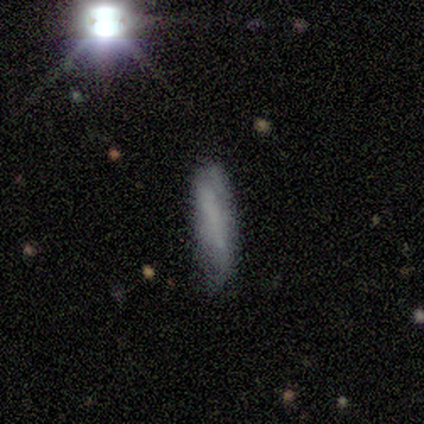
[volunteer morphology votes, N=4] This is clearly a smooth galaxy (100%). How rounded: clearly cigar-shaped (100%). Merging: likely none (75%).